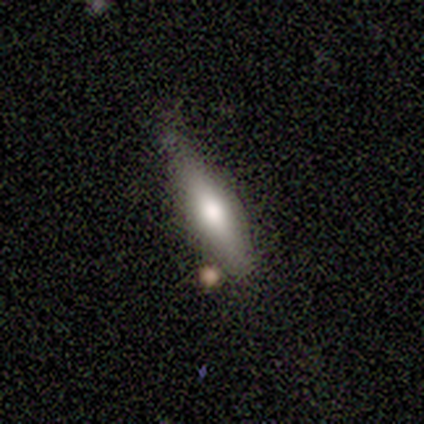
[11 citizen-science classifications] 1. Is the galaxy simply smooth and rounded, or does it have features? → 91% smooth, 9% featured or disk, 0% star or artifact.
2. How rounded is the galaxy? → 50% cigar-shaped, 40% in between, 10% round.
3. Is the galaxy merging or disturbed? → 64% none, 27% minor disturbance, 9% merger, 0% major disturbance.